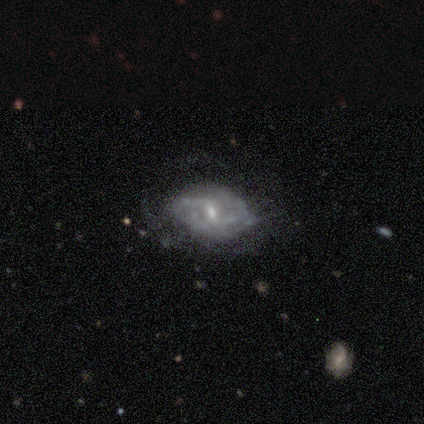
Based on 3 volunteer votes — A featured or disk galaxy (100%) with a weak bar (100%), no spiral arms (67%) and a moderate central bulge (33%, tied with small and none).

Vote fractions:
- Smooth or featured? featured or disk: 100% / smooth: 0% / star or artifact: 0%
- Edge-on disk? no: 100% / yes: 0%
- Bar? weak: 100% / strong: 0% / no: 0%
- Spiral arms? no: 67% / yes: 33%
- Bulge size? moderate: 33% (tied) / small: 33% (tied) / none: 33% (tied) / dominant: 0% / large: 0%
- Merging? none: 67% / minor disturbance: 33% / major disturbance: 0% / merger: 0%